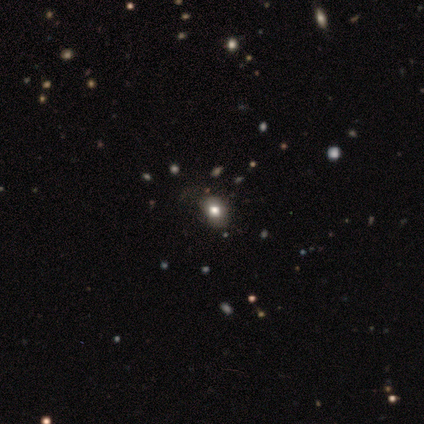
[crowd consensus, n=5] A smooth galaxy with no disk features (80%) that is round (75%). Merging: none (100%).